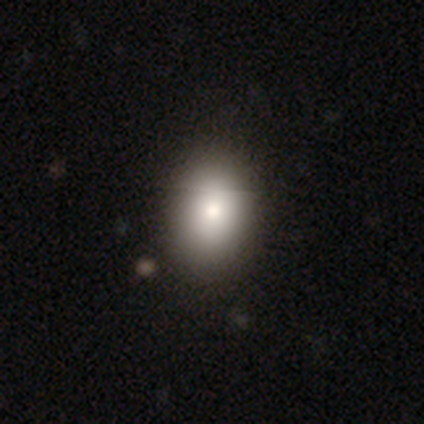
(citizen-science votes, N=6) smooth_or_featured: smooth (p=1.00)
how_rounded: in between (p=0.83) [alt: round p=0.17]
merging: none (p=0.83) [alt: minor disturbance p=0.17]